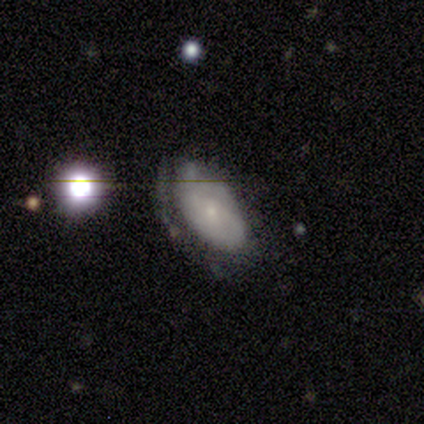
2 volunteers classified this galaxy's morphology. Q: Smooth or featured?
A: smooth (50%); tied with: featured or disk (50%)
Q: How rounded?
A: round (100%)
Q: Merging?
A: none (100%)